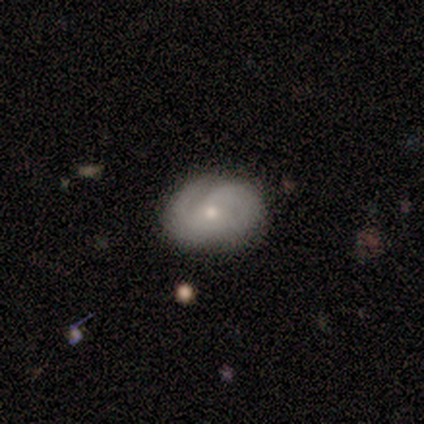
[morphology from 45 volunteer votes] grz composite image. It shows a smooth galaxy with no disk features (47%, tied with featured or disk) that is in between round and cigar-shaped (62%). Merging: none (74%).